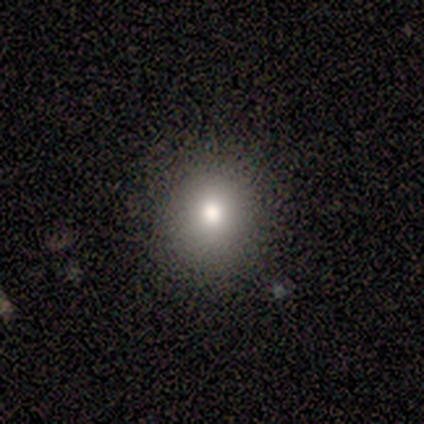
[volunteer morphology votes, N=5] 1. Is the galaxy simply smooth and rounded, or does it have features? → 60% smooth, 20% featured or disk, 20% star or artifact.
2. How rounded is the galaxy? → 100% round, 0% in between, 0% cigar-shaped.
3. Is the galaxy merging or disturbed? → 50% none (tied), 50% minor disturbance (tied), 0% major disturbance, 0% merger.